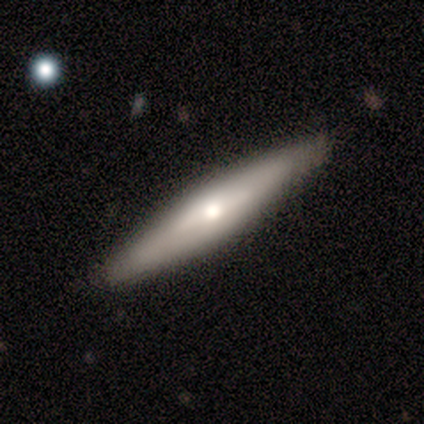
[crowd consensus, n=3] smooth_or_featured: featured or disk (p=0.67) [alt: smooth p=0.33]
disk_edge_on: yes (p=0.50) [tied with: no p=0.50]
edge_on_bulge: rounded (p=1.00)
merging: none (p=1.00)